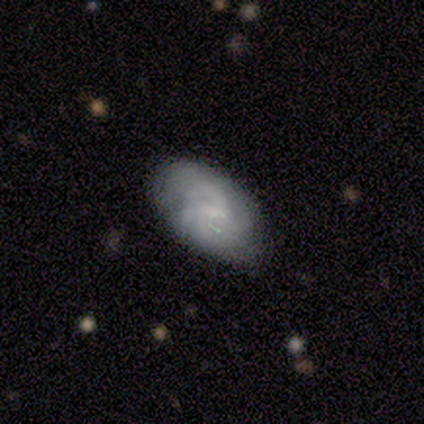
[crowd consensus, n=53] Overall: smooth (47%, tied with featured or disk). How rounded: in between (96%). Merging: none (52%; minor disturbance 34%).